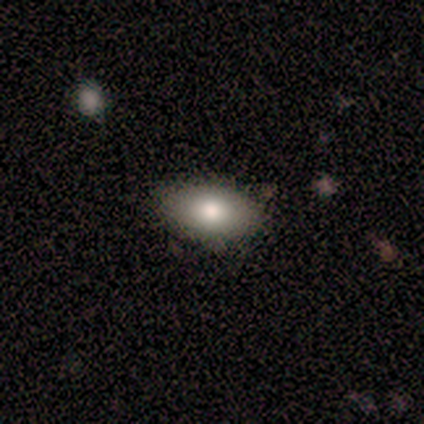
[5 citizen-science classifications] Q: Smooth or featured?
A: smooth (100%)
Q: How rounded?
A: in between (100%)
Q: Merging?
A: none (100%)